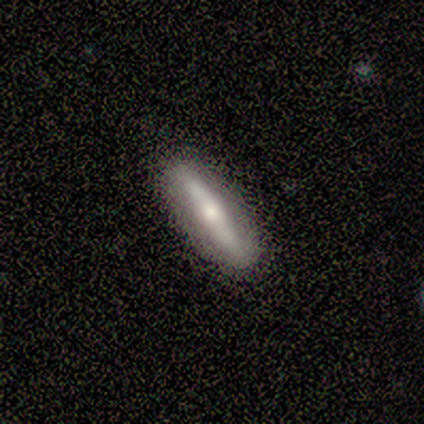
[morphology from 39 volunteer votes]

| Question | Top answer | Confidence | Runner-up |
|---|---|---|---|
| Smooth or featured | featured or disk | 59% | smooth (38%) |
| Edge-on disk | yes | 78% | no (22%) |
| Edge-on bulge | rounded | 94% | boxy (6%) |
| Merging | none | 87% | minor disturbance (8%) |